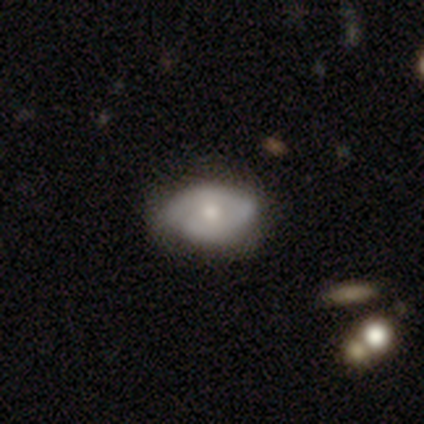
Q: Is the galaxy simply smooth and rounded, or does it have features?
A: featured or disk — 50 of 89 (56%).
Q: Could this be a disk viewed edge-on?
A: no — 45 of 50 (90%).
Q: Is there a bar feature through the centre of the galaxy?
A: no — 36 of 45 (80%).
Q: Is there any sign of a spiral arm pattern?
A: yes — 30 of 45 (67%).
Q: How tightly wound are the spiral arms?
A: medium — 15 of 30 (50%).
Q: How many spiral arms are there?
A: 2 — 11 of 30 (37%).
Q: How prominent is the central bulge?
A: moderate — 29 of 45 (64%).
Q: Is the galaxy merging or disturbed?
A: none — 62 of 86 (72%).